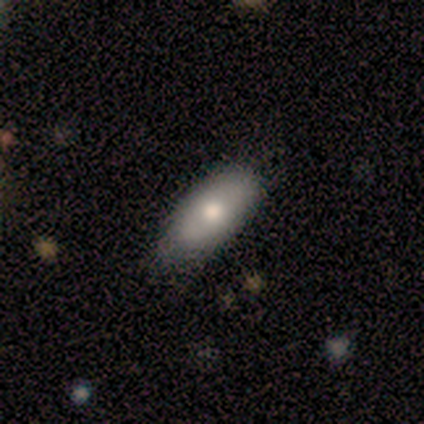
Overall: featured or disk (50%; smooth 25%). Edge-on disk: no (100%). Bar: no (100%). Spiral arms: no (100%). Bulge size: moderate (100%). Merging: none (67%; minor disturbance 33%).